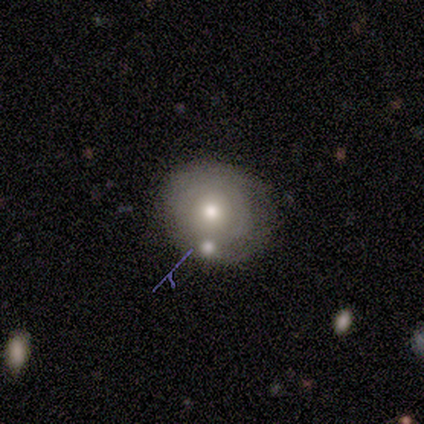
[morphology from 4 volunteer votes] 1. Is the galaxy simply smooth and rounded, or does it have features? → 75% smooth, 25% star or artifact, 0% featured or disk.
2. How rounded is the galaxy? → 100% round, 0% in between, 0% cigar-shaped.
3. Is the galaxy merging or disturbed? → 67% none, 33% minor disturbance, 0% major disturbance, 0% merger.